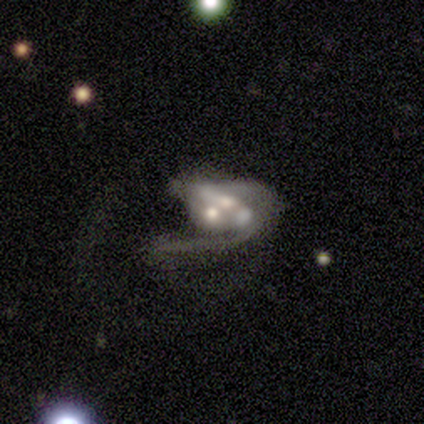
Overall: featured or disk (60%; smooth 20%). Edge-on disk: no (100%). Bar: no (67%; weak 33%). Spiral arms: no (67%; yes 33%). Bulge size: moderate (67%; large 33%). Merging: major disturbance (50%, tied with merger).